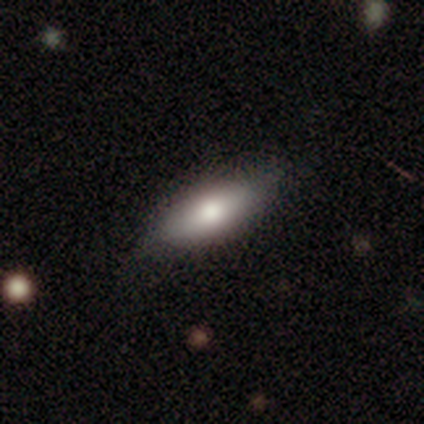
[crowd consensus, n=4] smooth 75%, featured or disk 25%, star or artifact 0%. Down the decision tree: how rounded — in between (67%); merging — none (75%).